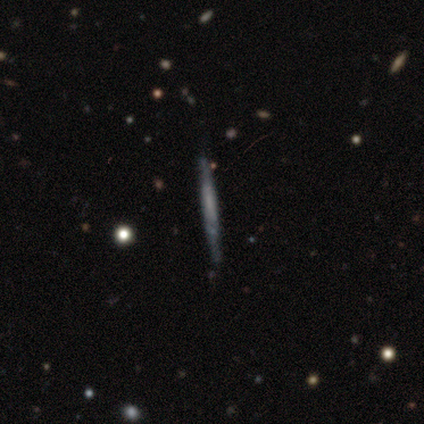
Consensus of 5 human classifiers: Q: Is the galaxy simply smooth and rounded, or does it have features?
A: smooth — 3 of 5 (60%).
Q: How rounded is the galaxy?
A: cigar-shaped — 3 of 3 (100%).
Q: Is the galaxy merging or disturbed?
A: none — 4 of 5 (80%).